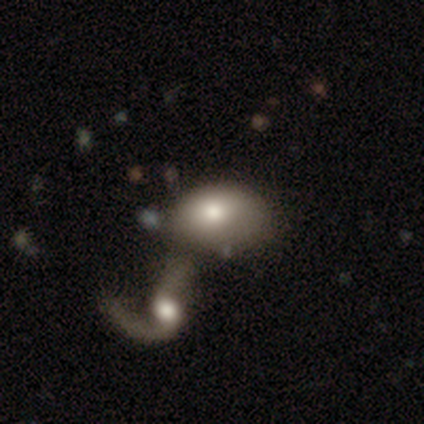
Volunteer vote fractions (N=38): A smooth galaxy with no disk features (63%) that is in between round and cigar-shaped (79%).

Vote fractions:
- Smooth or featured? smooth: 63% / featured or disk: 29% / star or artifact: 8%
- How rounded? in between: 79% / round: 21% / cigar-shaped: 0%
- Merging? merger: 63% / none: 17% / major disturbance: 11% / minor disturbance: 9%